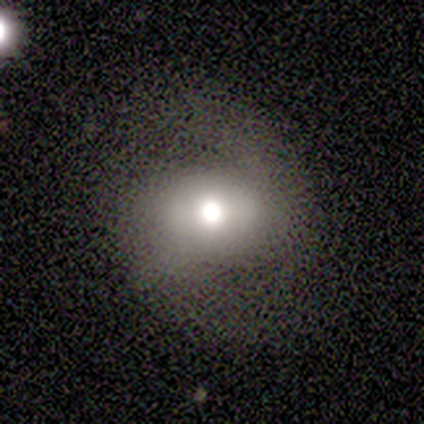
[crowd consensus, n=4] smooth-or-featured: smooth: 50% (tied) | featured or disk: 50% (tied) | star or artifact: 0%
  how-rounded: round: 50% (tied) | in between: 50% (tied) | cigar-shaped: 0%
  merging: none: 100% | minor disturbance: 0% | major disturbance: 0% | merger: 0%